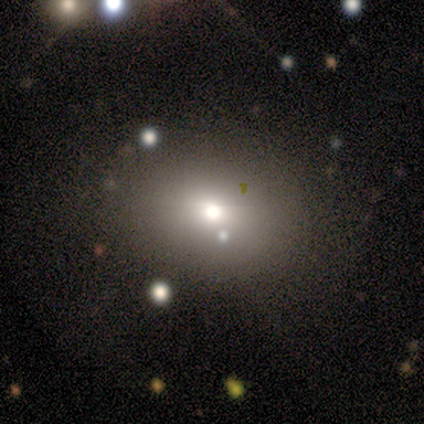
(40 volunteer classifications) smooth 75%, star or artifact 18%, featured or disk 8%. Down the decision tree: how rounded — round (60%); merging — none (70%).